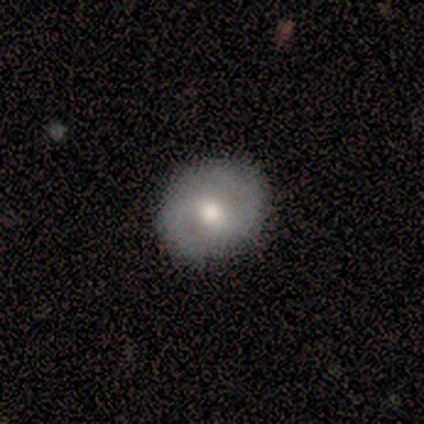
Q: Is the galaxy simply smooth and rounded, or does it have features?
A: smooth — 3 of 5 (60%).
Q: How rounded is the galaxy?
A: in between — 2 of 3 (67%).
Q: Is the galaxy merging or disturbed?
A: none — 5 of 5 (100%).